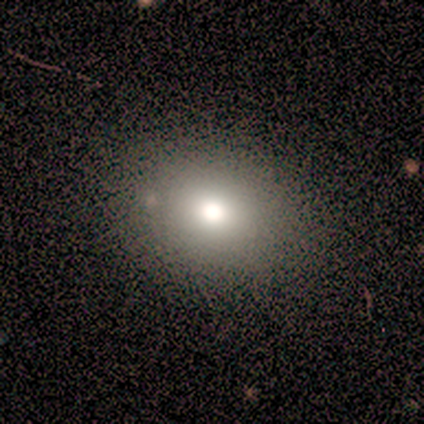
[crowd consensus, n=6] smooth_or_featured: smooth (p=0.83) [alt: featured or disk p=0.17]
how_rounded: in between (p=0.80) [alt: round p=0.20]
merging: none (p=0.83) [alt: minor disturbance p=0.17]